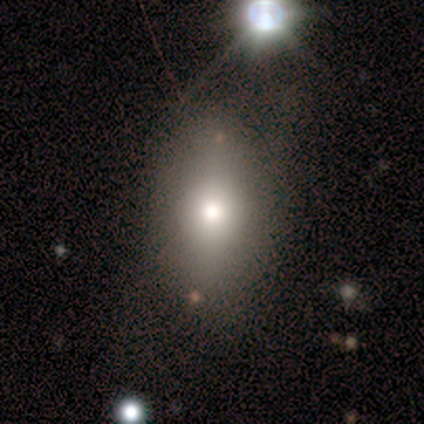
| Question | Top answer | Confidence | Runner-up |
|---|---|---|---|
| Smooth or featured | smooth | 80% | featured or disk (20%) |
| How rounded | in between | 75% | round (25%) |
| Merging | none | 80% | minor disturbance (20%) |